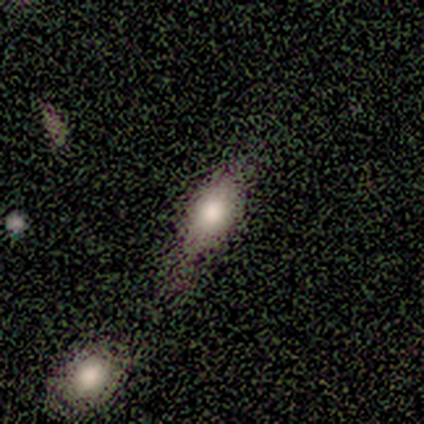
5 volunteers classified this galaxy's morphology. Smooth or featured? 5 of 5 (100%) said smooth. How rounded? 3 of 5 (60%) said in between. Merging? 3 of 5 (60%) said none.